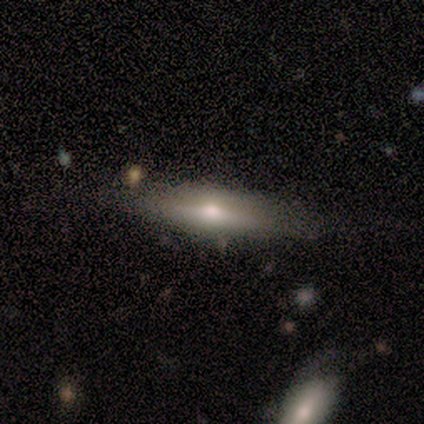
smooth-or-featured: smooth: 50% (tied) | featured or disk: 50% (tied) | star or artifact: 0%
  how-rounded: cigar-shaped: 100% | round: 0% | in between: 0%
  merging: none: 83% | minor disturbance: 17% | major disturbance: 0% | merger: 0%